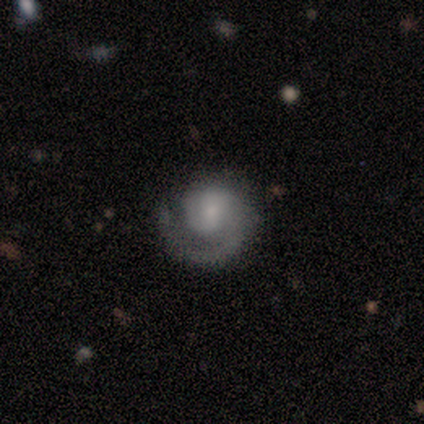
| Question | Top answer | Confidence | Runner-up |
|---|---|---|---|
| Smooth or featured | featured or disk | 80% | smooth (20%) |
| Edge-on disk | no | 100% | — |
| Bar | no | 75% | strong (25%) |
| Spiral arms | yes | 100% | — |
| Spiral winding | tight | 75% | loose (25%) |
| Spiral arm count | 1 | 100% | — |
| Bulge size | small | 50% | moderate (25%) |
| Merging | minor disturbance | 60% | none (40%) |